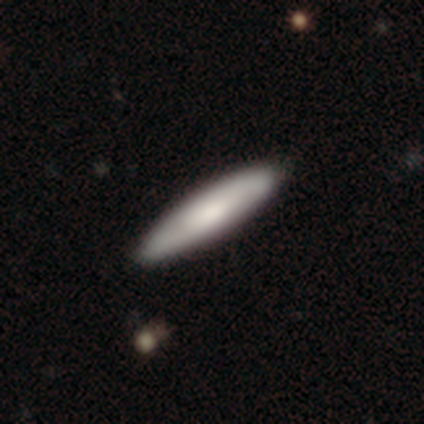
A smooth galaxy with no disk features (80%) that is cigar-shaped (75%). Merging: none (100%).